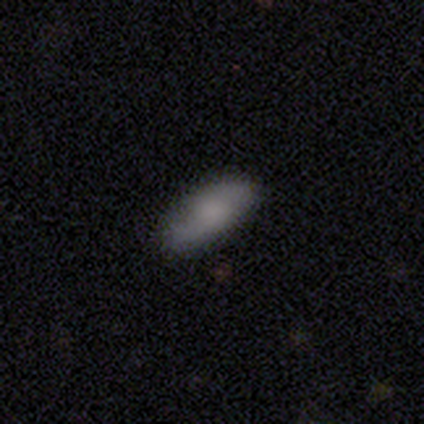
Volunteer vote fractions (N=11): Q: Smooth or featured?
A: smooth (64%); runner-up: featured or disk (18%)
Q: How rounded?
A: in between (100%)
Q: Merging?
A: none (89%); runner-up: minor disturbance (11%)